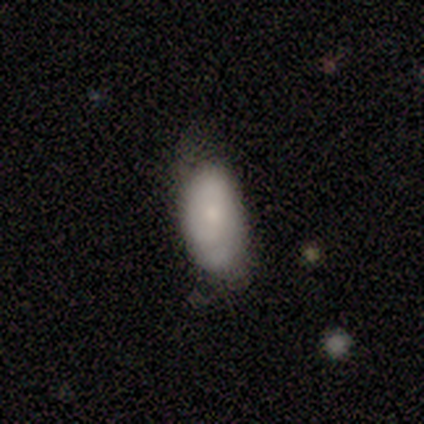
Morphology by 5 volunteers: Overall: smooth (100%). How rounded: in between (100%). Merging: none (60%; minor disturbance 20%).